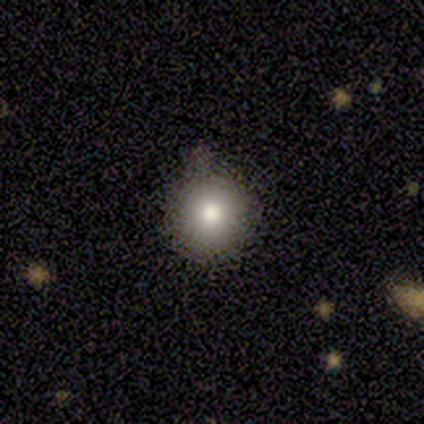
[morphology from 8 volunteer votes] This appears to be a smooth galaxy with no disk features (88%) that is round (100%). Merging: none (86%).